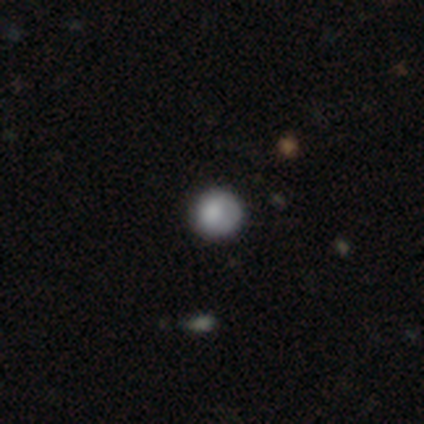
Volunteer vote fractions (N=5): Smooth or featured?
  - smooth: 60% *
  - featured or disk: 40%
  - star or artifact: 0%
How rounded?
  - round: 100% *
  - in between: 0%
  - cigar-shaped: 0%
Merging?
  - none: 80% *
  - minor disturbance: 20%
  - major disturbance: 0%
  - merger: 0%